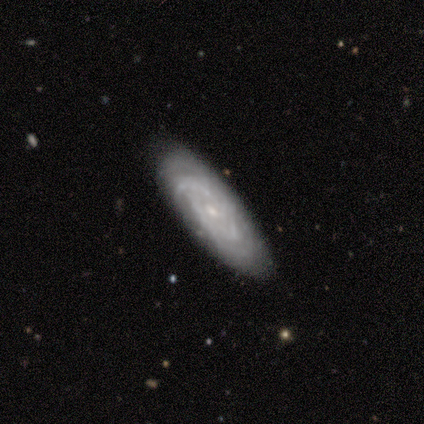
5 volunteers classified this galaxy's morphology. A featured or disk galaxy (60%) with no bar (100%), tight (50%, tied with medium) spiral arms (67%) and a small central bulge (100%).

Vote fractions:
- Smooth or featured? featured or disk: 60% / smooth: 20% / star or artifact: 20%
- Edge-on disk? no: 100% / yes: 0%
- Bar? no: 100% / strong: 0% / weak: 0%
- Spiral arms? yes: 67% / no: 33%
- Spiral winding? tight: 50% (tied) / medium: 50% (tied) / loose: 0%
- Spiral arm count? can't tell: 100% / 1: 0% / 2: 0% / 3: 0% / 4: 0% / more than 4: 0%
- Bulge size? small: 100% / dominant: 0% / large: 0% / moderate: 0% / none: 0%
- Merging? none: 100% / minor disturbance: 0% / major disturbance: 0% / merger: 0%